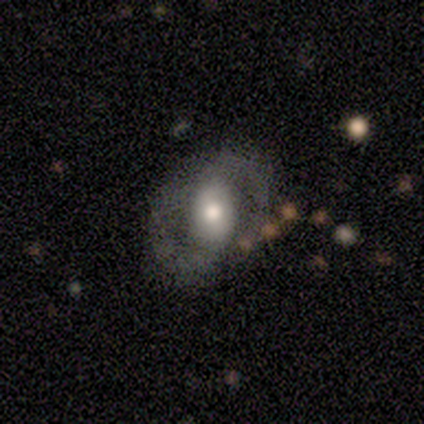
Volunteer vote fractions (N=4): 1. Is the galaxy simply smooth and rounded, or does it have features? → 50% smooth, 25% featured or disk, 25% star or artifact.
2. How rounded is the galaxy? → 100% in between, 0% round, 0% cigar-shaped.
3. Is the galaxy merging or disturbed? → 67% none, 33% merger, 0% minor disturbance, 0% major disturbance.